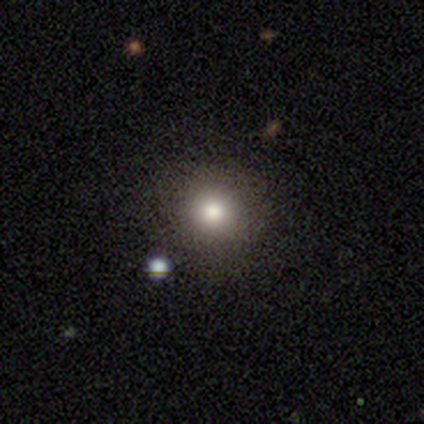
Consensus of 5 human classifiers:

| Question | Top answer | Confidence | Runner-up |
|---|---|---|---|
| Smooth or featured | smooth | 40% | tied: featured or disk (40%) |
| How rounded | round | 100% | — |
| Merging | none | 75% | minor disturbance (25%) |